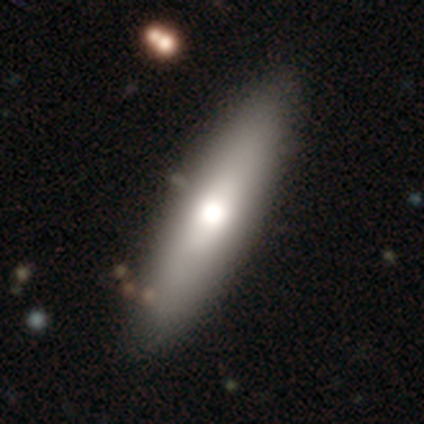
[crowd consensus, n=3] Volunteers were most divided on "how rounded" (2-way tie): in between: 50%, cigar-shaped: 50%, round: 0%. More confident: merging — none (100%); smooth or featured — smooth (67%).